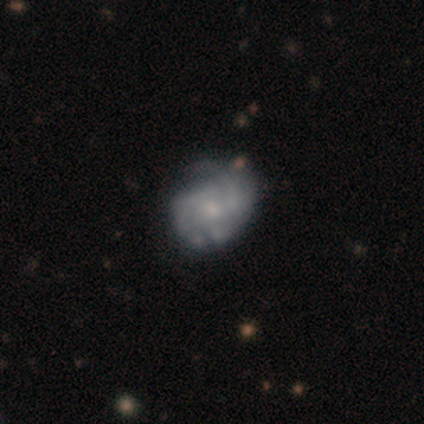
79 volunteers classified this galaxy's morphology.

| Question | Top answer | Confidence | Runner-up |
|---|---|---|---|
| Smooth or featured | featured or disk | 80% | smooth (18%) |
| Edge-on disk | no | 100% | — |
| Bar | no | 84% | weak (14%) |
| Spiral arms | yes | 78% | no (22%) |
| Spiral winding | tight | 47% | medium (37%) |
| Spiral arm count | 2 | 47% | can't tell (29%) |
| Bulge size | small | 62% | moderate (22%) |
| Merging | none | 32% | minor disturbance (13%) |